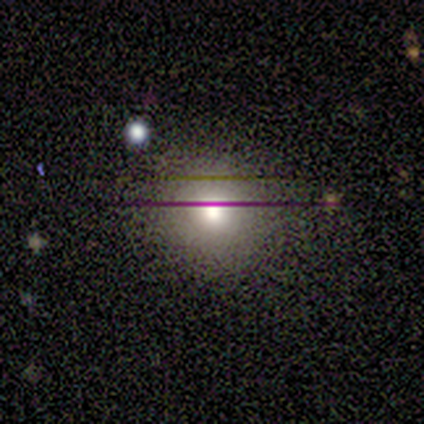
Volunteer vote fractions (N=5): smooth_or_featured: smooth (p=1.00)
how_rounded: round (p=0.80) [alt: in between p=0.20]
merging: none (p=0.60) [alt: minor disturbance p=0.20]